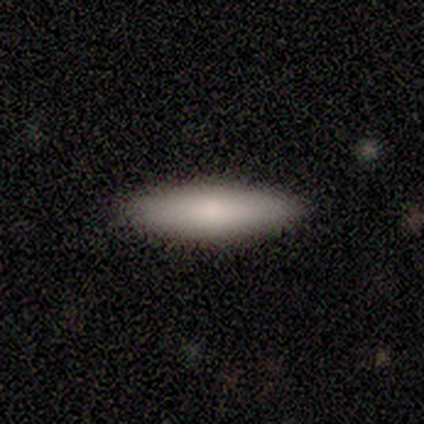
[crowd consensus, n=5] smooth 100%, featured or disk 0%, star or artifact 0%. Down the decision tree: how rounded — cigar-shaped (80%); merging — none (100%).